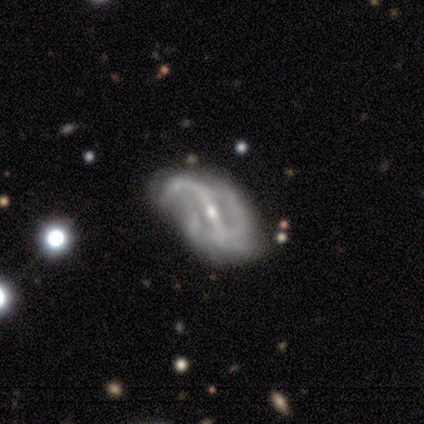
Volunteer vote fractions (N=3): smooth-or-featured: featured or disk: 100% | smooth: 0% | star or artifact: 0%
  disk-edge-on: no: 100% | yes: 0%
    bar: strong: 67% | weak: 33% | no: 0%
    has-spiral-arms: yes: 100% | no: 0%
      spiral-winding: loose: 67% | medium: 33% | tight: 0%
      spiral-arm-count: 1: 33% (tied) | 2: 33% (tied) | can't tell: 33% (tied) | 3: 0% | 4: 0% | more than 4: 0%
    bulge-size: small: 100% | dominant: 0% | large: 0% | moderate: 0% | none: 0%
  merging: major disturbance: 67% | none: 33% | minor disturbance: 0% | merger: 0%